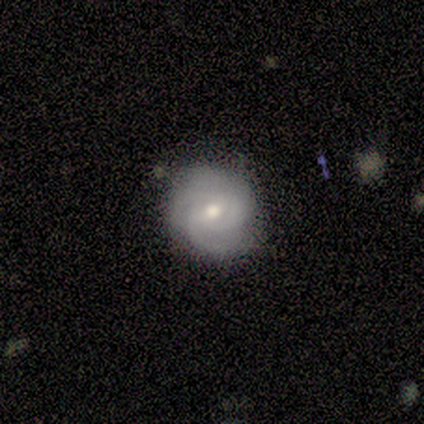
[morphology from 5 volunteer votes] smooth_or_featured: featured or disk (p=0.80) [alt: smooth p=0.20]
disk_edge_on: no (p=1.00)
bar: no (p=1.00)
has_spiral_arms: yes (p=1.00)
spiral_winding: tight (p=1.00)
spiral_arm_count: 3 (p=0.50) [alt: 2 p=0.25]
bulge_size: moderate (p=0.75) [alt: small p=0.25]
merging: none (p=0.80) [alt: minor disturbance p=0.20]